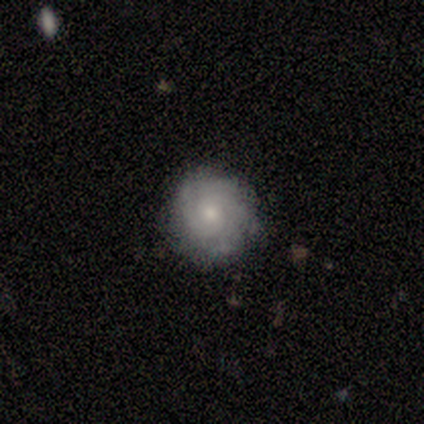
smooth_or_featured: featured or disk (p=0.58) [alt: smooth p=0.42]
disk_edge_on: no (p=0.91) [alt: yes p=0.09]
bar: no (p=0.85) [alt: weak p=0.15]
has_spiral_arms: yes (p=1.00)
spiral_winding: tight (p=0.80) [alt: medium p=0.20]
spiral_arm_count: can't tell (p=0.65) [alt: 2 p=0.20]
bulge_size: small (p=0.65) [alt: moderate p=0.30]
merging: none (p=0.79) [alt: minor disturbance p=0.16]